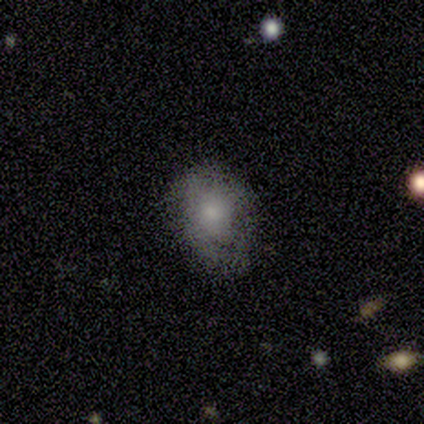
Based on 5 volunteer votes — smooth_or_featured: smooth (p=0.80) [alt: star or artifact p=0.20]
how_rounded: round (p=0.50) [tied with: in between p=0.50]
merging: none (p=0.75) [alt: minor disturbance p=0.25]